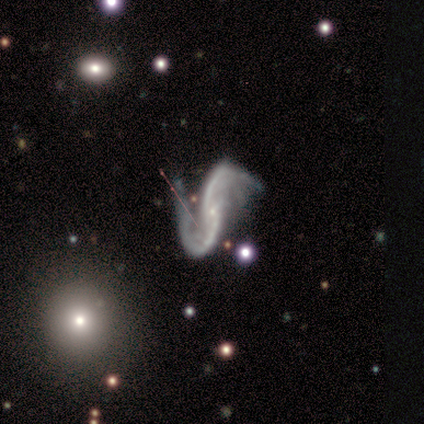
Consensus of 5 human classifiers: Overall: star or artifact (60%; featured or disk 40%).